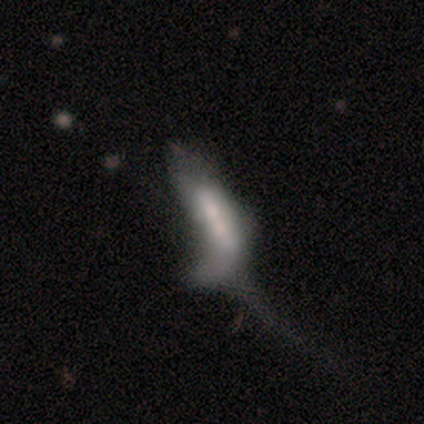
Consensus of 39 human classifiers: Smooth or featured?
  - smooth: 59% *
  - featured or disk: 33%
  - star or artifact: 8%
How rounded?
  - cigar-shaped: 52% *
  - in between: 48%
  - round: 0%
Merging?
  - major disturbance: 58% *
  - merger: 28%
  - none: 11%
  - minor disturbance: 3%